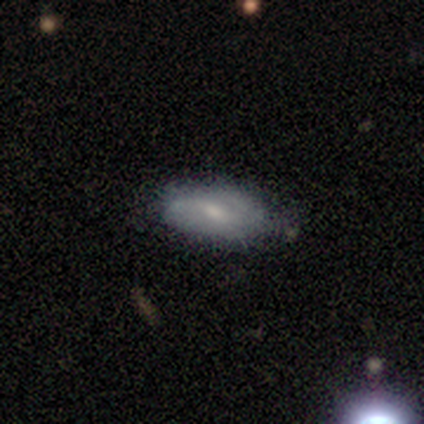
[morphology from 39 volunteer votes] featured or disk 46%, smooth 44%, star or artifact 10%. Down the decision tree: edge-on disk — no (83%); bar — weak (40%, tied with no); spiral arms — yes (80%); spiral arm count — 2 (67%); spiral winding — medium (58%); bulge size — small (53%); merging — none (74%).